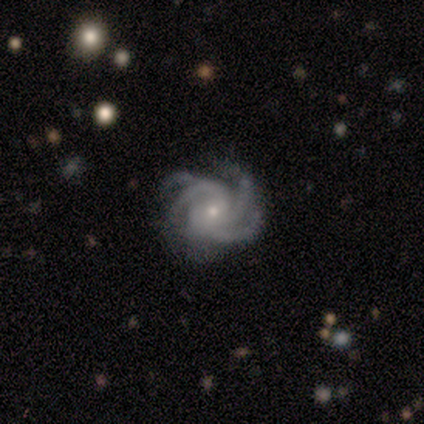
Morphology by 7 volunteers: smooth_or_featured: featured or disk (p=0.86) [alt: smooth p=0.14]
disk_edge_on: no (p=1.00)
bar: no (p=0.67) [alt: weak p=0.33]
has_spiral_arms: yes (p=1.00)
spiral_winding: tight (p=0.50) [tied with: medium p=0.50]
spiral_arm_count: 3 (p=0.33) [tied with: 4 p=0.33, more than 4 p=0.33]
bulge_size: small (p=0.83) [alt: moderate p=0.17]
merging: none (p=0.71) [alt: minor disturbance p=0.14]